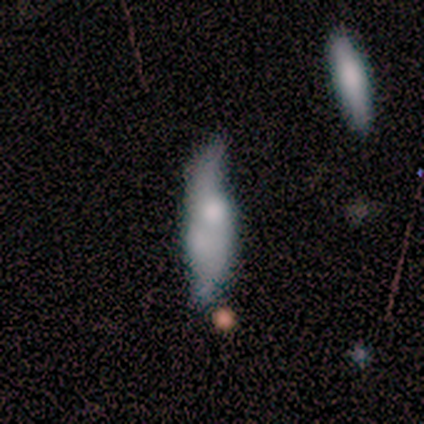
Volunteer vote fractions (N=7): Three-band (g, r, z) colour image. It shows a featured or disk galaxy (86%) with no bar (83%), 2 (100%) loose (100%) spiral arms (67%) and a moderate central bulge (33%, tied with small and none). Merging: none (29%, tied with minor disturbance and merger).